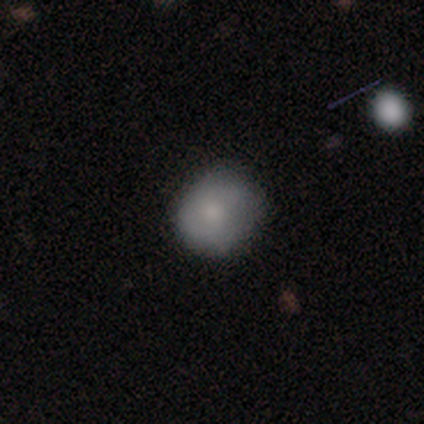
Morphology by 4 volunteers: Smooth or featured?
  - smooth: 50% *
  - featured or disk: 25%
  - star or artifact: 25%
How rounded?
  - round: 50% * (tied)
  - in between: 50% * (tied)
  - cigar-shaped: 0%
Merging?
  - none: 67% *
  - minor disturbance: 33%
  - major disturbance: 0%
  - merger: 0%